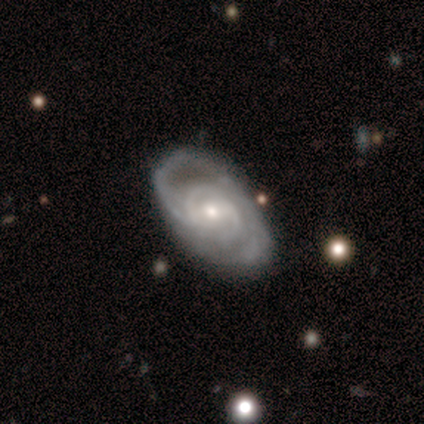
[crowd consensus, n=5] featured or disk 100%, smooth 0%, star or artifact 0%. Down the decision tree: edge-on disk — no (100%); bar — no (60%); spiral arms — yes (100%); spiral arm count — 2 (60%); spiral winding — medium (60%); bulge size — small (100%); merging — none (60%).